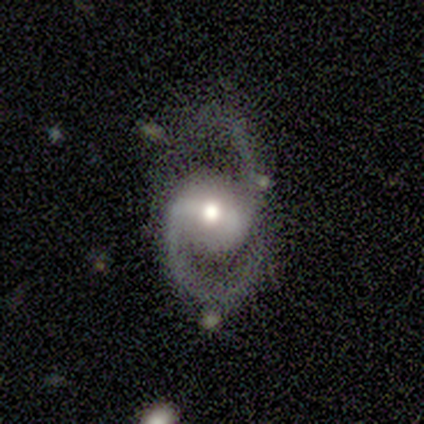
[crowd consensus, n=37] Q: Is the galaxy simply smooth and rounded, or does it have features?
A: featured or disk — 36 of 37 (97%).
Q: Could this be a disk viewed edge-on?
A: no — 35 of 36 (97%).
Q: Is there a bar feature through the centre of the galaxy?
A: strong — 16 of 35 (46%).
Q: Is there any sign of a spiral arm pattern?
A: yes — 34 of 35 (97%).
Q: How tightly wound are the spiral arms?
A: medium — 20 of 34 (59%).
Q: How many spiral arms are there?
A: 2 — 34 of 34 (100%).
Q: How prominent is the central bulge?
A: moderate — 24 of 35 (69%).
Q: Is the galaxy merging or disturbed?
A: none — 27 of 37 (73%).